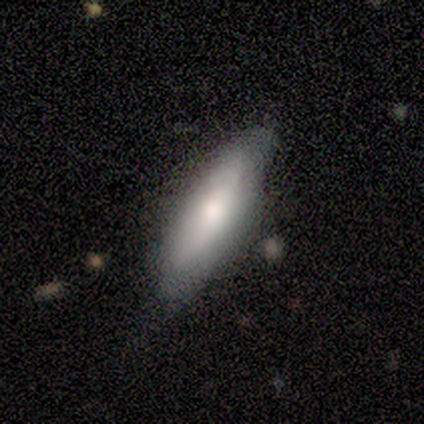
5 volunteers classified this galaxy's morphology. smooth-or-featured: smooth: 60% | featured or disk: 40% | star or artifact: 0%
  how-rounded: in between: 67% | cigar-shaped: 33% | round: 0%
  merging: none: 60% | minor disturbance: 20% | merger: 20% | major disturbance: 0%